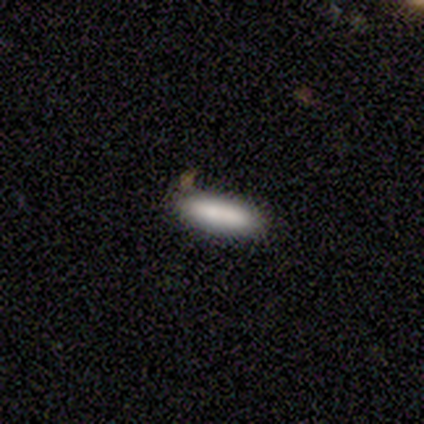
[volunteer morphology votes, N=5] smooth-or-featured: smooth: 100% | featured or disk: 0% | star or artifact: 0%
  how-rounded: in between: 60% | cigar-shaped: 40% | round: 0%
  merging: none: 80% | merger: 20% | minor disturbance: 0% | major disturbance: 0%